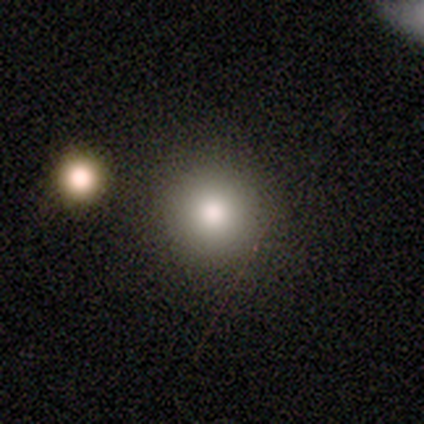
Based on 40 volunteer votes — smooth-or-featured: smooth: 88% | featured or disk: 8% | star or artifact: 5%
  how-rounded: round: 97% | in between: 3% | cigar-shaped: 0%
  merging: none: 79% | minor disturbance: 16% | major disturbance: 3% | merger: 3%